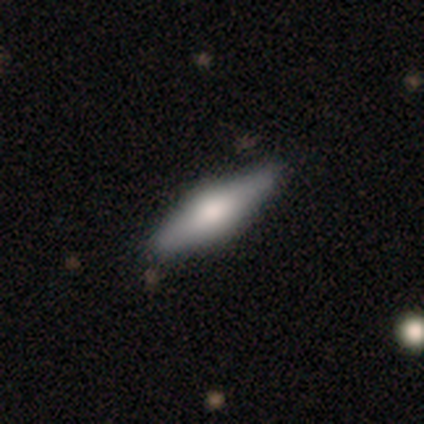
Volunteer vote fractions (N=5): A featured or disk galaxy (60%) viewed edge-on (100%) with a boxy central bulge (67%).

Vote fractions:
- Smooth or featured? featured or disk: 60% / smooth: 40% / star or artifact: 0%
- Edge-on disk? yes: 100% / no: 0%
- Edge-on bulge? boxy: 67% / rounded: 33% / none: 0%
- Merging? none: 80% / minor disturbance: 20% / major disturbance: 0% / merger: 0%